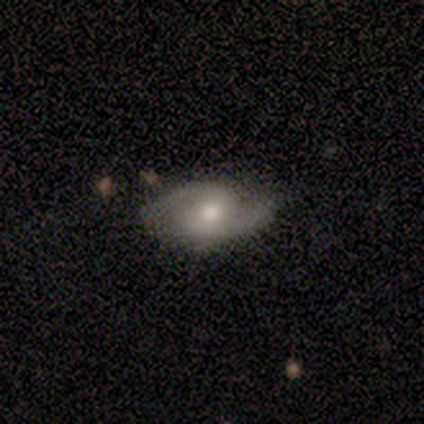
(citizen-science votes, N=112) Smooth or featured: featured or disk — 79% (smooth — 16%)
Edge-on disk: no — 98% (yes — 2%)
Bar: no — 58% (weak — 34%)
Spiral arms: yes — 100%
Spiral winding: medium — 59% (tight — 22%)
Spiral arm count: 2 — 99% (1 — 1%)
Bulge size: moderate — 67% (large — 20%)
Merging: none — 80% (minor disturbance — 18%)